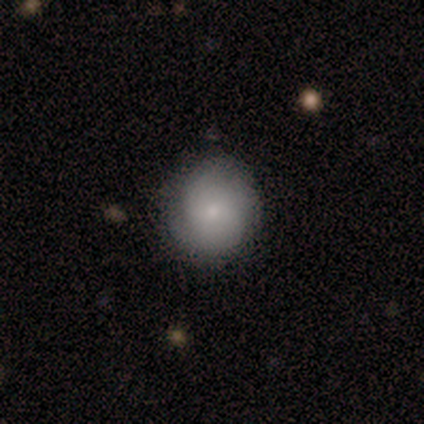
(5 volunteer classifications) Smooth or featured?
  - smooth: 80% *
  - featured or disk: 20%
  - star or artifact: 0%
How rounded?
  - round: 100% *
  - in between: 0%
  - cigar-shaped: 0%
Merging?
  - none: 60% *
  - minor disturbance: 40%
  - major disturbance: 0%
  - merger: 0%